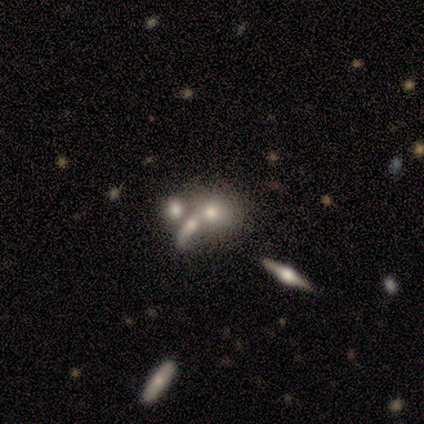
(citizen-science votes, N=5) smooth-or-featured: smooth: 80% | featured or disk: 20% | star or artifact: 0%
  how-rounded: round: 75% | in between: 25% | cigar-shaped: 0%
  merging: merger: 60% | none: 40% | minor disturbance: 0% | major disturbance: 0%